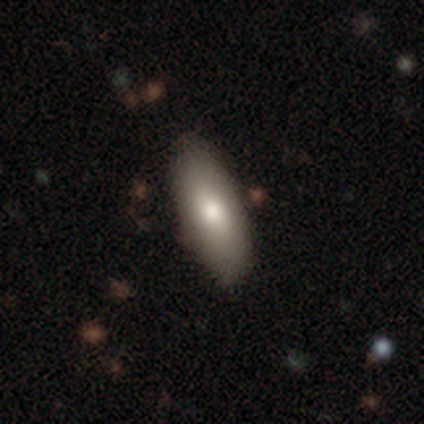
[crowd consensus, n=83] Volunteers were most divided on "merging": none: 48%, minor disturbance: 5%, major disturbance: 0%, merger: 0%. More confident: how rounded — in between (87%); smooth or featured — smooth (81%).